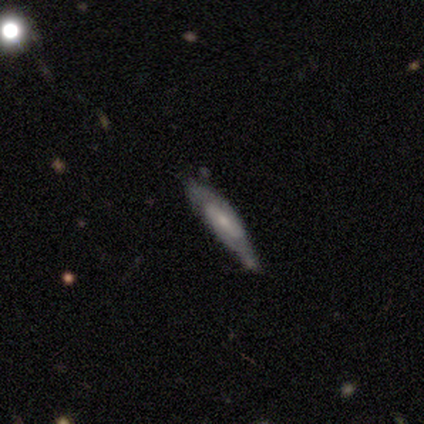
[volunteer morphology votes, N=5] smooth_or_featured: featured or disk (p=0.80) [alt: smooth p=0.20]
disk_edge_on: yes (p=0.50) [tied with: no p=0.50]
edge_on_bulge: none (p=0.50) [tied with: rounded p=0.50]
merging: none (p=0.60) [alt: major disturbance p=0.40]